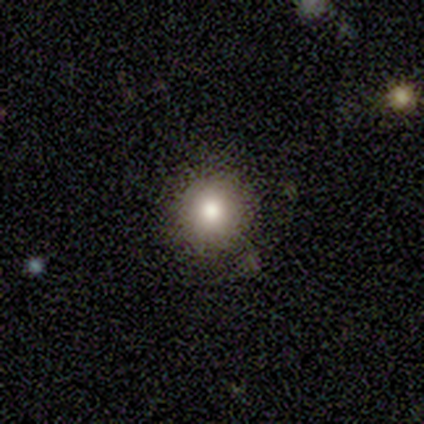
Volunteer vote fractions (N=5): This is clearly a smooth galaxy (80%). How rounded: likely round (75%). Merging: likely none (75%).